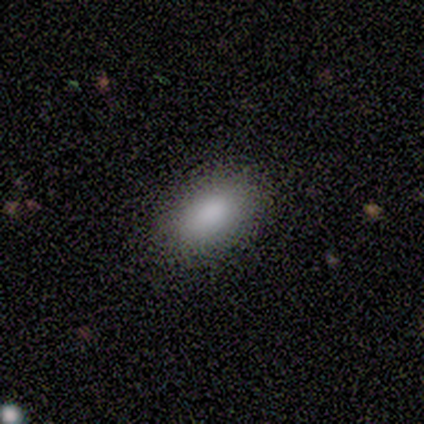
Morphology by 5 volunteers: Smooth or featured: smooth — 80% (featured or disk — 20%)
How rounded: in between — 75% (cigar-shaped — 25%)
Merging: none — 80% (minor disturbance — 20%)